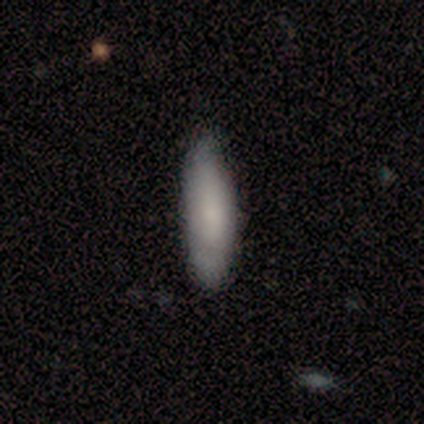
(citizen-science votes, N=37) Smooth or featured? 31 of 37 (84%) said smooth. How rounded? 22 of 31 (71%) said cigar-shaped. Merging? 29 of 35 (83%) said none.